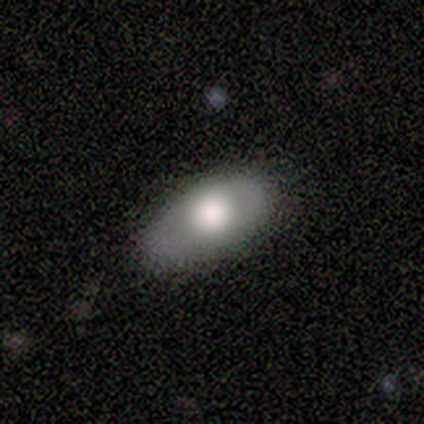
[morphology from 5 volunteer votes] type=smooth (60%); roundness=in between (67%); merging=none (100%).